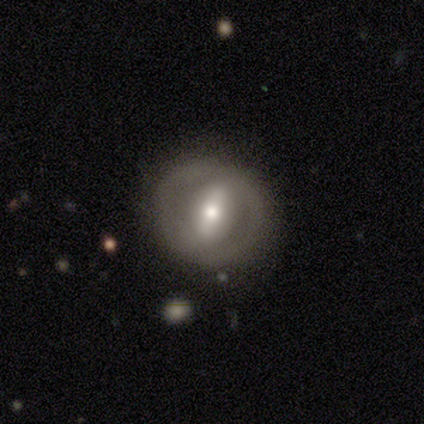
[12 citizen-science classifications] featured or disk 58%, smooth 33%, star or artifact 8%. Down the decision tree: edge-on disk — no (86%); bar — no (67%); spiral arms — no (100%); bulge size — moderate (83%); merging — none (82%).